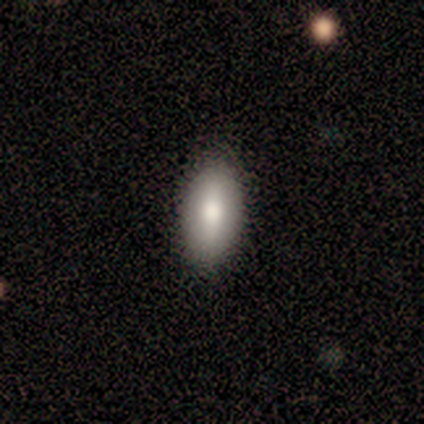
Volunteers were most divided on "smooth or featured": smooth: 60%, featured or disk: 40%, star or artifact: 0%. More confident: merging — none (100%); how rounded — in between (67%).